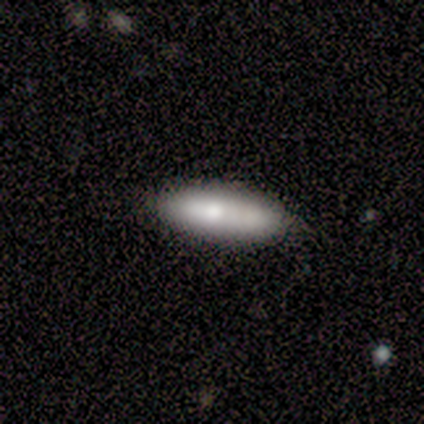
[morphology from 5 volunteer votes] A smooth galaxy with no disk features (100%) that is cigar-shaped (80%). Merging: none (100%).